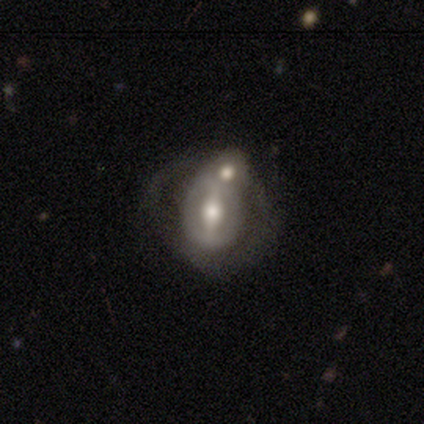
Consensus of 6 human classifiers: Smooth or featured: featured or disk — 83% (smooth — 17%)
Edge-on disk: no — 100%
Bar: strong — 60% (weak — 20%)
Spiral arms: no — 80% (yes — 20%)
Bulge size: large — 80% (moderate — 20%)
Merging: merger — 67% (none — 17%)